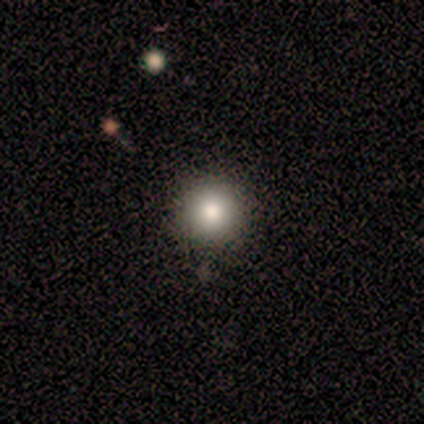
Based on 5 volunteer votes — Morphology: type=smooth (80%); roundness=round (100%); merging=none (80%).